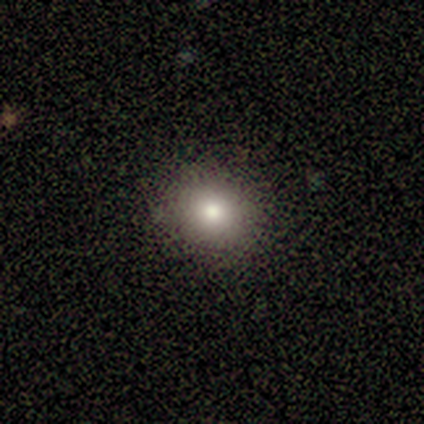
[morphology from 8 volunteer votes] smooth-or-featured: smooth: 88% | featured or disk: 12% | star or artifact: 0%
  how-rounded: round: 71% | in between: 29% | cigar-shaped: 0%
  merging: none: 100% | minor disturbance: 0% | major disturbance: 0% | merger: 0%